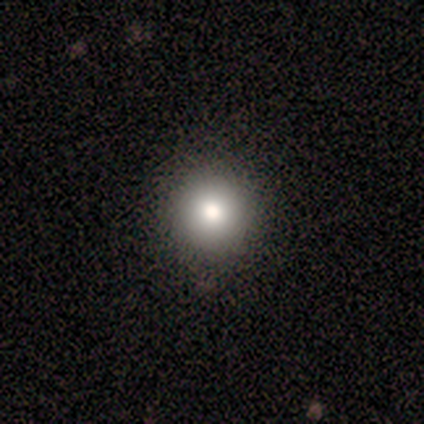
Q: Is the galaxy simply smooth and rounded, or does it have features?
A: smooth — 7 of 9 (78%).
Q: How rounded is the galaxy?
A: round — 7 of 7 (100%).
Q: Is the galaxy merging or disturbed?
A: none — 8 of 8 (100%).